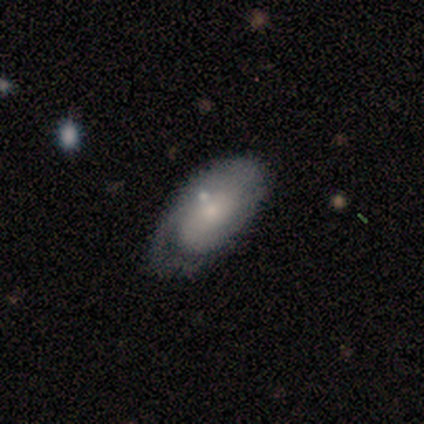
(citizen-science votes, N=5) Q: Smooth or featured?
A: smooth (60%); runner-up: featured or disk (40%)
Q: How rounded?
A: in between (67%); runner-up: cigar-shaped (33%)
Q: Merging?
A: none (60%); runner-up: minor disturbance (20%)